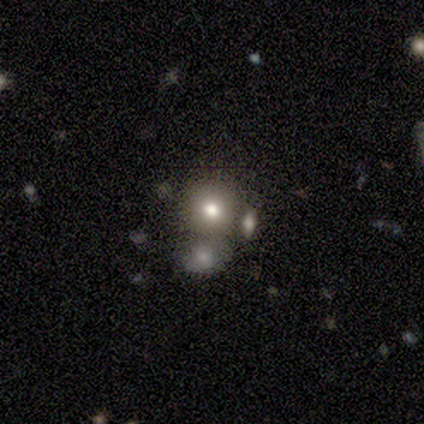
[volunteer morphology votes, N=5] smooth-or-featured: smooth: 60% | featured or disk: 40% | star or artifact: 0%
  how-rounded: round: 100% | in between: 0% | cigar-shaped: 0%
  merging: none: 80% | minor disturbance: 20% | major disturbance: 0% | merger: 0%